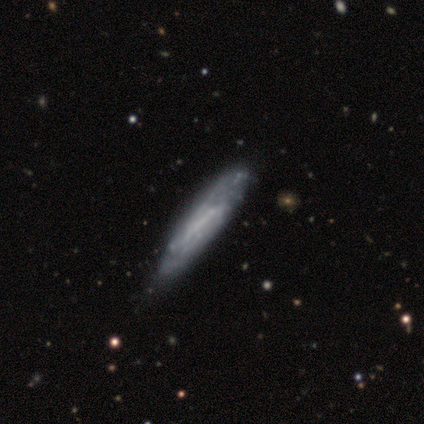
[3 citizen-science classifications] This is likely a featured or disk galaxy (67%). It is possibly viewed edge-on (50%, tied with no). Edge-on bulge: clearly none (100%). Merging: likely none (67%).